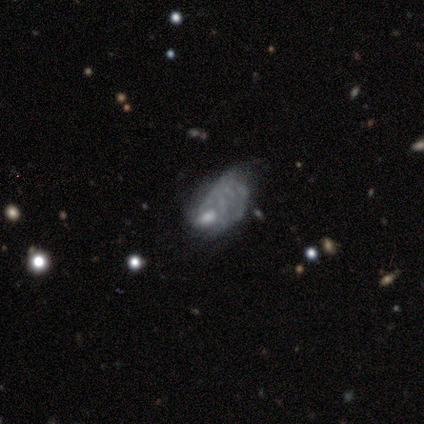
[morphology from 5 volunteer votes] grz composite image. It shows a featured or disk galaxy (60%) with no bar (100%), no spiral arms (100%) and a moderate central bulge (33%, tied with small and none). Merging: major disturbance (75%).